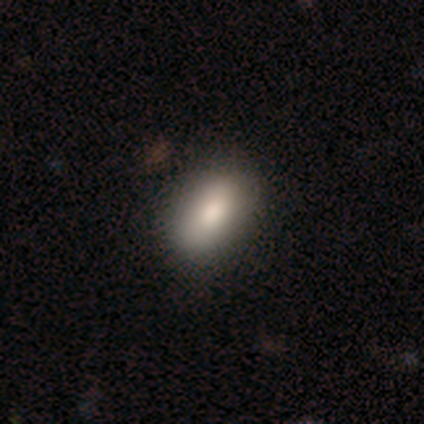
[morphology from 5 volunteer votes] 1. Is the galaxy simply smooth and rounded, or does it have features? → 80% smooth, 20% featured or disk, 0% star or artifact.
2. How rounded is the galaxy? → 75% in between, 25% cigar-shaped, 0% round.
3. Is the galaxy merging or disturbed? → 100% none, 0% minor disturbance, 0% major disturbance, 0% merger.